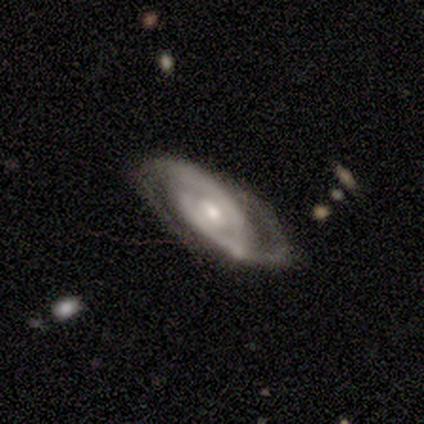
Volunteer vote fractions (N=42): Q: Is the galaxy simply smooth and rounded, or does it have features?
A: featured or disk — 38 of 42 (90%).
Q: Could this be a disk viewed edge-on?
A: no — 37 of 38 (97%).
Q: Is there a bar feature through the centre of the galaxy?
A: no — 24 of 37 (65%).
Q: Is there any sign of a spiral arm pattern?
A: yes — 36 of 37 (97%).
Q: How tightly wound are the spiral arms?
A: tight — 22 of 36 (61%).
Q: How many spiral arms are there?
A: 2 — 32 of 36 (89%).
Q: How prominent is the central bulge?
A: moderate — 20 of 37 (54%).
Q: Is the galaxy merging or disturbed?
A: none — 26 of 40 (65%).